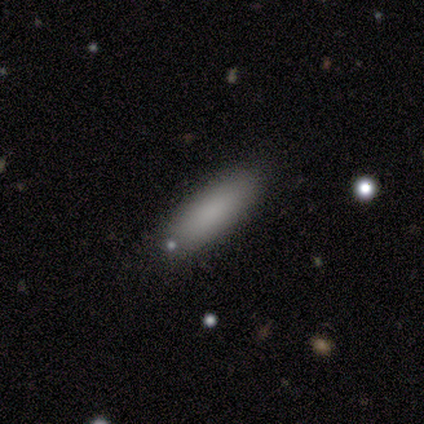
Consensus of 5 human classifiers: This appears to be a smooth galaxy with no disk features (100%) that is in between round and cigar-shaped (80%). Merging: none (60%).